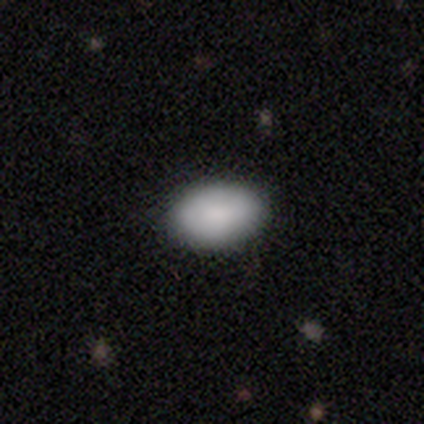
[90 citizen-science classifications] Smooth or featured?
  - smooth: 91% *
  - featured or disk: 4%
  - star or artifact: 4%
How rounded?
  - in between: 91% *
  - round: 9%
  - cigar-shaped: 0%
Merging?
  - none: 86% *
  - major disturbance: 8%
  - minor disturbance: 6%
  - merger: 0%